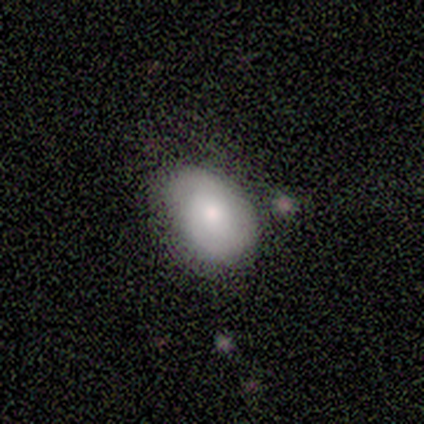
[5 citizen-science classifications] Q: Smooth or featured?
A: smooth (60%); runner-up: featured or disk (20%)
Q: How rounded?
A: in between (67%); runner-up: round (33%)
Q: Merging?
A: none (50%); runner-up: minor disturbance (25%)